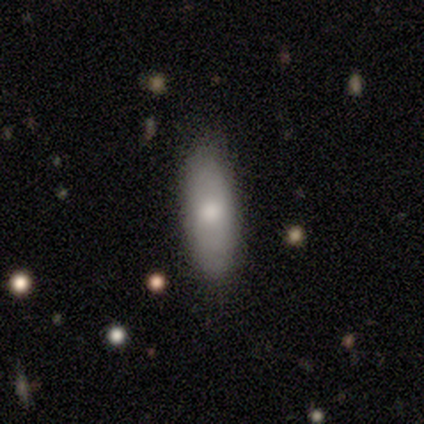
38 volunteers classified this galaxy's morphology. Smooth or featured?
  - smooth: 87% *
  - featured or disk: 8%
  - star or artifact: 5%
How rounded?
  - in between: 64% *
  - cigar-shaped: 36%
  - round: 0%
Merging?
  - none: 81% *
  - minor disturbance: 8%
  - major disturbance: 8%
  - merger: 3%